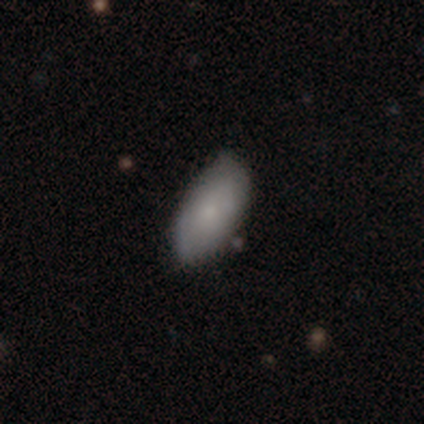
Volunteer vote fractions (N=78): Smooth or featured? 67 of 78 (86%) said smooth. How rounded? 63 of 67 (94%) said in between. Merging? 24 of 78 (31%) said none.